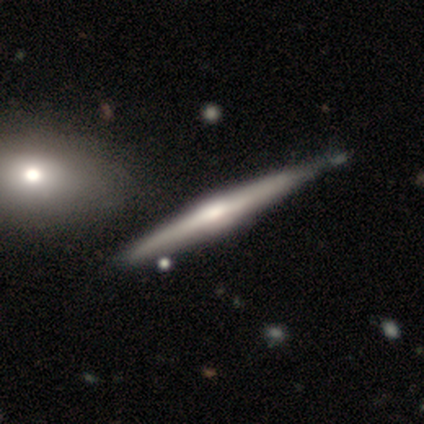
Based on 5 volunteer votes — This appears to be a featured or disk galaxy (60%) viewed edge-on (100%) with a rounded central bulge (67%). Merging: none (100%).